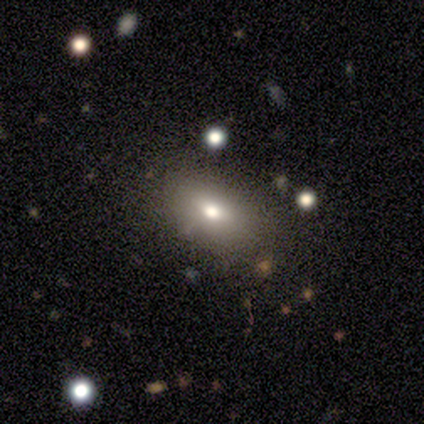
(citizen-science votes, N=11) Volunteers were most divided on "smooth or featured": smooth: 55%, featured or disk: 45%, star or artifact: 0%. More confident: how rounded — in between (83%); merging — none (64%).